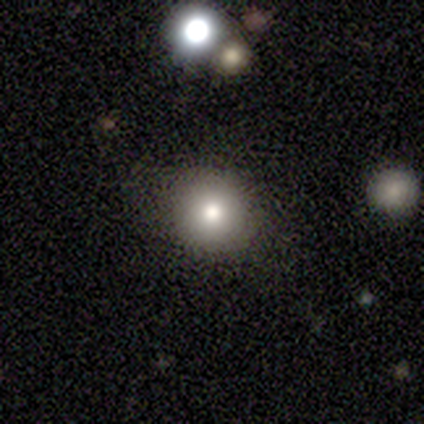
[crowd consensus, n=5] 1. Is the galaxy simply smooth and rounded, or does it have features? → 60% smooth, 40% star or artifact, 0% featured or disk.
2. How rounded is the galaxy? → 100% round, 0% in between, 0% cigar-shaped.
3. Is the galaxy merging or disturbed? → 100% none, 0% minor disturbance, 0% major disturbance, 0% merger.